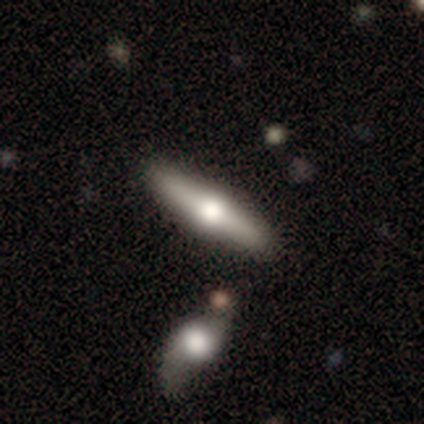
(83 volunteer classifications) Volunteers were most divided on "smooth or featured": featured or disk: 60%, smooth: 35%, star or artifact: 5%. More confident: edge-on bulge — rounded (100%); edge-on disk — yes (90%); merging — none (84%).